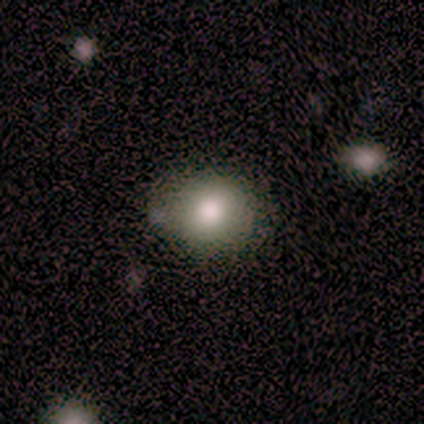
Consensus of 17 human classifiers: smooth 71%, featured or disk 24%, star or artifact 6%. Down the decision tree: how rounded — round (58%); merging — none (62%).